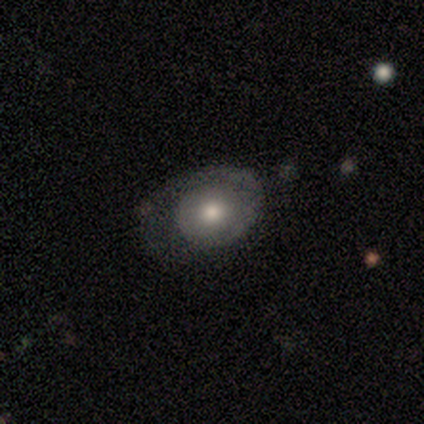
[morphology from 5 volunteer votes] Smooth or featured? featured or disk (60%)
Edge-on disk? no (100%)
Bar? no (67%)
Spiral arms? yes (67%)
Spiral winding? tight (50%, tied with loose)
Spiral arm count? 1 (100%)
Bulge size? moderate (100%)
Merging? none (60%)